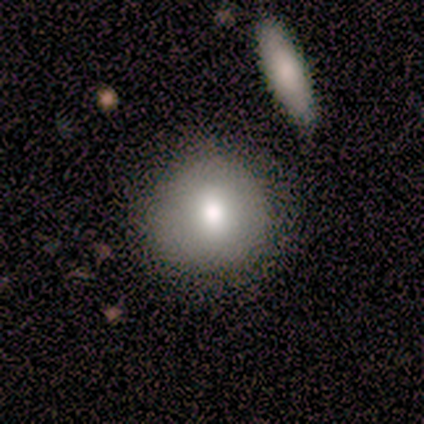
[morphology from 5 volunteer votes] Smooth or featured? smooth (100%)
How rounded? round (80%)
Merging? none (80%)